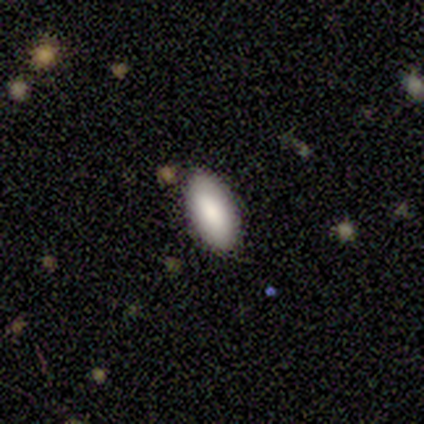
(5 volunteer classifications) Smooth or featured? smooth (100%)
How rounded? in between (100%)
Merging? none (80%)